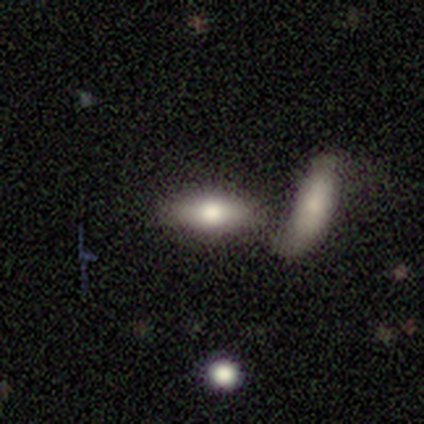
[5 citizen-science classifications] Smooth or featured? smooth (60%)
How rounded? in between (100%)
Merging? merger (50%)